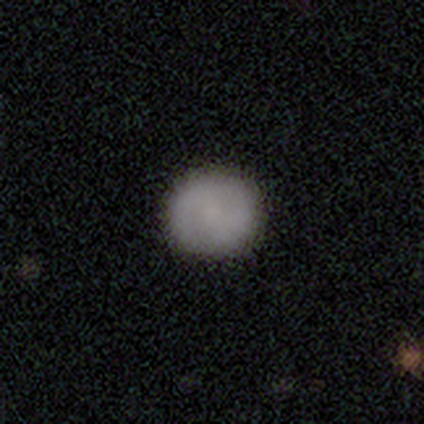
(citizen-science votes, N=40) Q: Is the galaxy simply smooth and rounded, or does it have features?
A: smooth — 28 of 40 (70%).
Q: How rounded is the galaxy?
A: round — 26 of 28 (93%).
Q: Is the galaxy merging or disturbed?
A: none — 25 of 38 (66%).